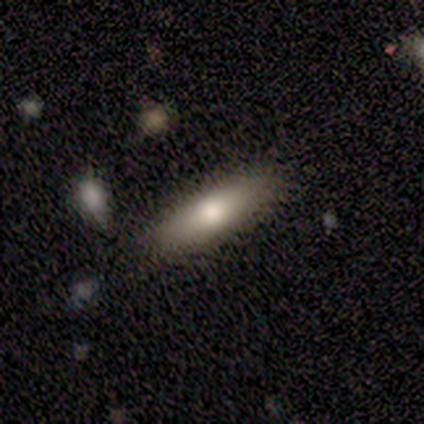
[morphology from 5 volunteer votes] smooth 80%, featured or disk 20%, star or artifact 0%. Down the decision tree: how rounded — cigar-shaped (100%); merging — none (100%).